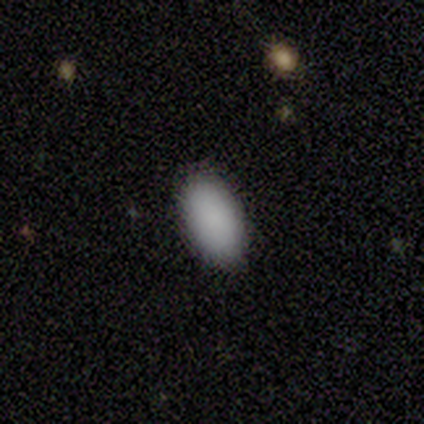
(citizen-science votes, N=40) Smooth or featured: smooth — 85% (featured or disk — 10%)
How rounded: in between — 100%
Merging: none — 87% (minor disturbance — 8%)